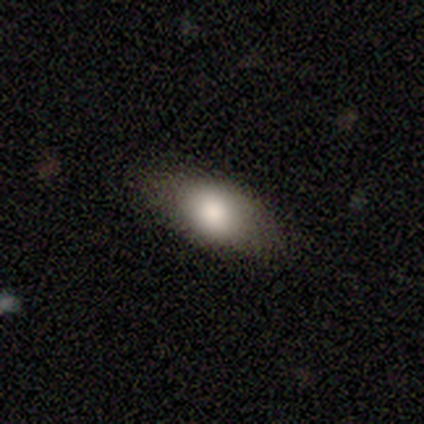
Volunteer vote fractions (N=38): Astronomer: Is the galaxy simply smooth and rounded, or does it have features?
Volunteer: smooth — 76%.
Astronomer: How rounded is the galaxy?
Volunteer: in between — 93%.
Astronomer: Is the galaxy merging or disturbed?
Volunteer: none — 86%.